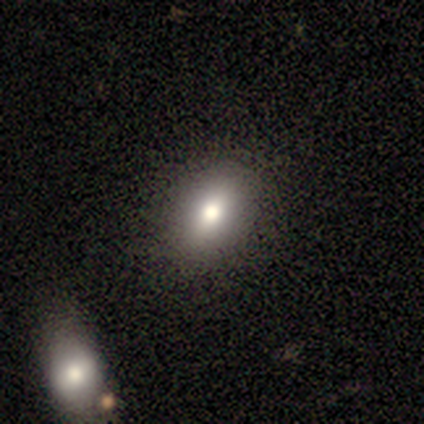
smooth 60%, star or artifact 40%, featured or disk 0%. Down the decision tree: how rounded — in between (100%); merging — none (100%).